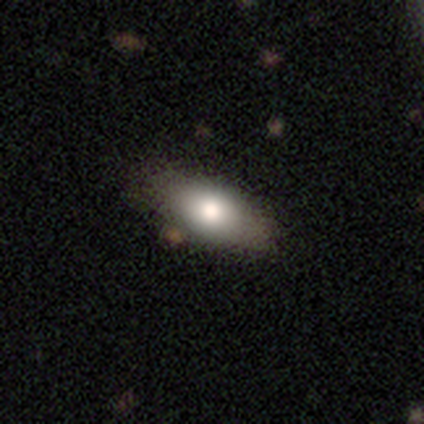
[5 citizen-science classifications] This is clearly a smooth galaxy (80%). How rounded: clearly in between (100%). Merging: clearly none (100%).